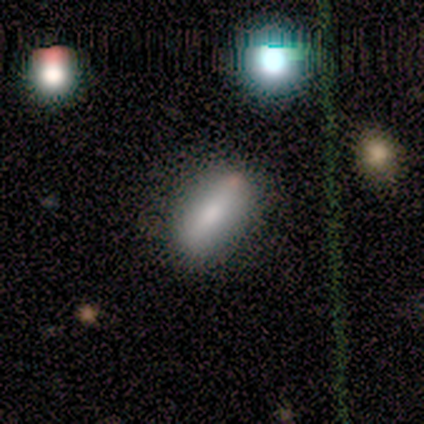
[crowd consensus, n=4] Overall: smooth (75%). How rounded: in between (67%; round 33%). Merging: none (100%).